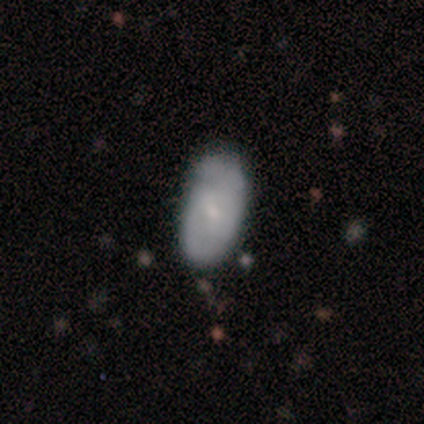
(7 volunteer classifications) A smooth galaxy with no disk features (57%) that is in between round and cigar-shaped (100%). Merging: none (57%).